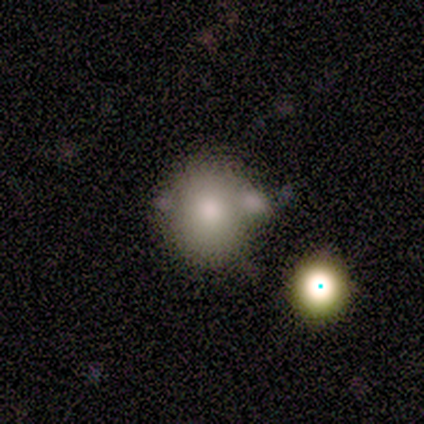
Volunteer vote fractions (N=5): Morphology: type=smooth (80%); roundness=round (50%, tied with in between); merging=none (80%).